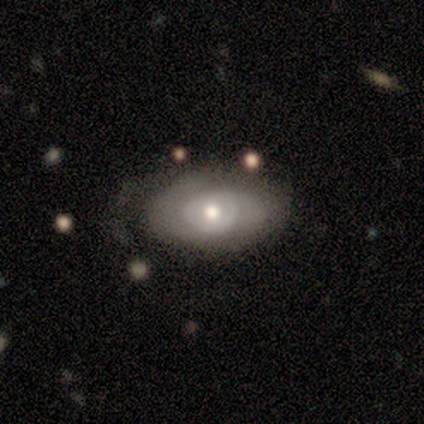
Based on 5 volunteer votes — This is likely a featured or disk galaxy (60%). It is clearly not viewed edge-on (100%). Bar: clearly no (100%). Spiral arm pattern: likely yes (67%). Spiral arm count: possibly 1 (50%, tied with can't tell). Spiral winding: clearly tight (100%). Central bulge: likely moderate (67%). Merging: likely none (75%).